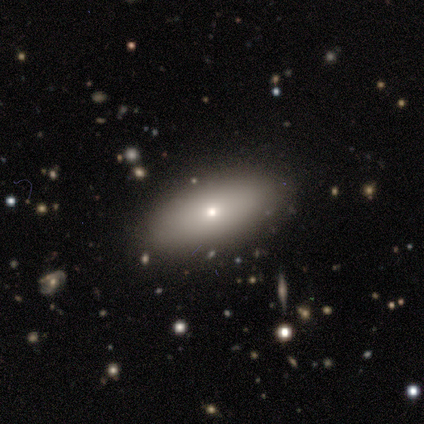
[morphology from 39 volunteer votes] This appears to be a smooth galaxy with no disk features (77%) that is in between round and cigar-shaped (87%). Merging: none (79%).